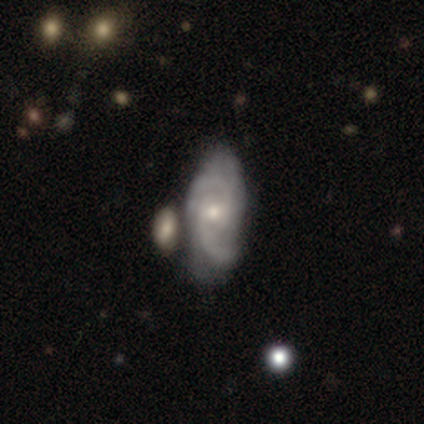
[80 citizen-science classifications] Smooth or featured? featured or disk (85%)
Edge-on disk? no (93%)
Bar? no (65%)
Spiral arms? yes (95%)
Spiral winding? medium (45%)
Spiral arm count? 2 (58%)
Bulge size? small (60%)
Merging? merger (35%)